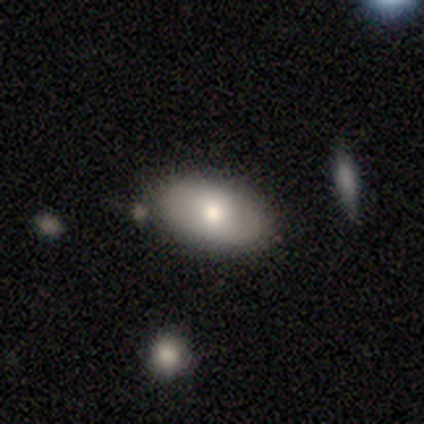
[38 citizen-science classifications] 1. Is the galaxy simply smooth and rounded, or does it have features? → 76% smooth, 16% featured or disk, 8% star or artifact.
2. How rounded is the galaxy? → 93% in between, 3% round, 3% cigar-shaped.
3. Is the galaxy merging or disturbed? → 83% none, 9% minor disturbance, 6% merger, 3% major disturbance.